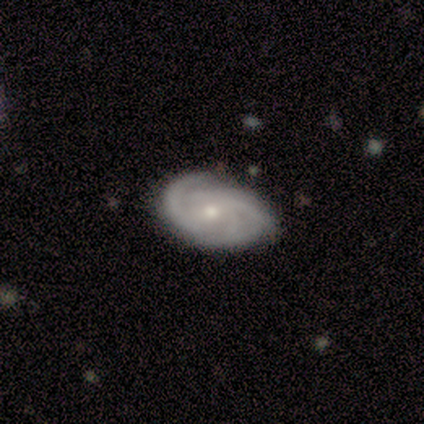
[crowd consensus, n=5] Overall: featured or disk (100%). Edge-on disk: no (100%). Bar: no (60%; weak 40%). Spiral arms: yes (100%). Spiral arm count: 2 (60%; can't tell 40%). Spiral winding: tight (40%, tied with medium). Bulge size: small (80%). Merging: none (100%).